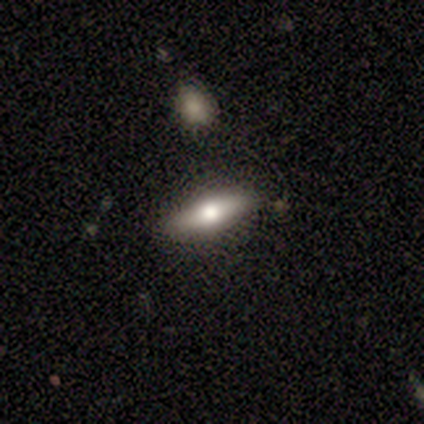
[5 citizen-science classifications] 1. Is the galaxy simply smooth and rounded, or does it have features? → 60% smooth, 40% featured or disk, 0% star or artifact.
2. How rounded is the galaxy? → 67% cigar-shaped, 33% in between, 0% round.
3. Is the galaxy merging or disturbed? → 100% none, 0% minor disturbance, 0% major disturbance, 0% merger.